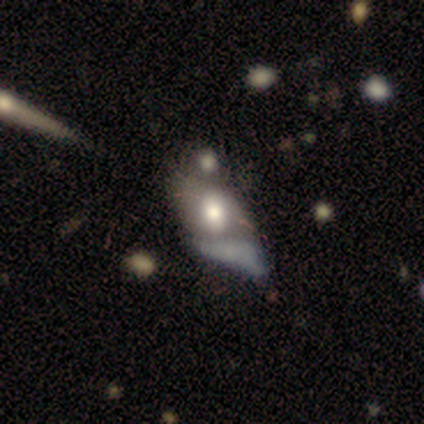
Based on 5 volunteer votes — This is likely a smooth galaxy (60%). How rounded: likely in between (67%). Merging: possibly merger (50%).